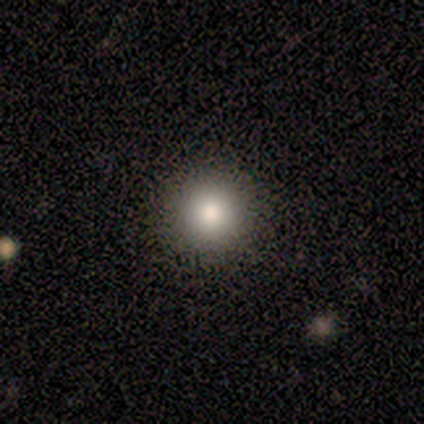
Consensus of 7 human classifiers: Overall: smooth (86%). How rounded: round (100%). Merging: none (100%).